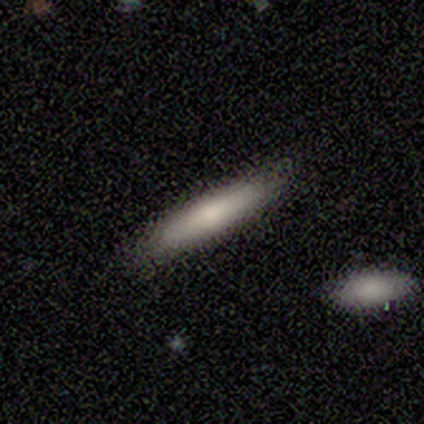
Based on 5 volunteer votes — Q: Smooth or featured?
A: smooth (80%); runner-up: featured or disk (20%)
Q: How rounded?
A: cigar-shaped (75%); runner-up: in between (25%)
Q: Merging?
A: none (100%)